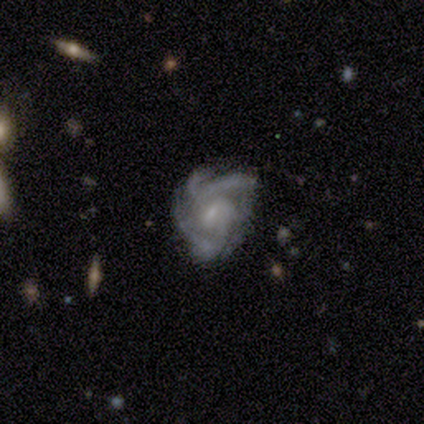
Smooth or featured? 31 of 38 (82%) said featured or disk. Edge-on disk? 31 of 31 (100%) said no. Bar? 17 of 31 (55%) said weak. Spiral arms? 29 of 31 (94%) said yes. Spiral winding? 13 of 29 (45%, tied with medium) said tight. Spiral arm count? 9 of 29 (31%) said 3. Bulge size? 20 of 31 (65%) said small. Merging? 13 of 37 (35%) said minor disturbance.